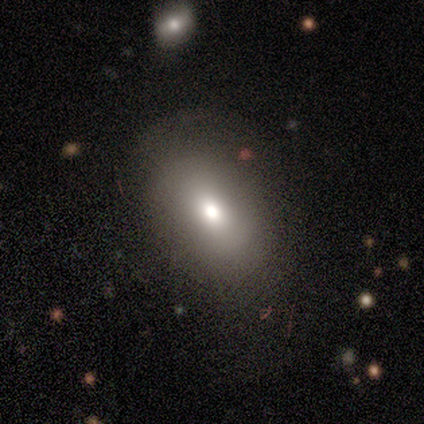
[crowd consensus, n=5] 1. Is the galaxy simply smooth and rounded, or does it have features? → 80% smooth, 20% star or artifact, 0% featured or disk.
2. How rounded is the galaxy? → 50% round (tied), 50% in between (tied), 0% cigar-shaped.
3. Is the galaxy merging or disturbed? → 100% none, 0% minor disturbance, 0% major disturbance, 0% merger.